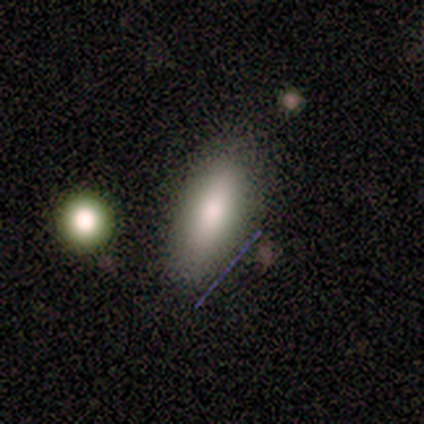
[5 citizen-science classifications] smooth 80%, featured or disk 20%, star or artifact 0%. Down the decision tree: how rounded — in between (50%, tied with cigar-shaped); merging — none (100%).